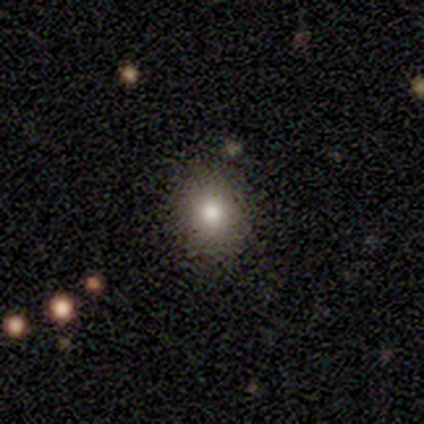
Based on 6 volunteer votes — This appears to be a smooth galaxy with no disk features (83%) that is round (100%). Merging: none (100%).